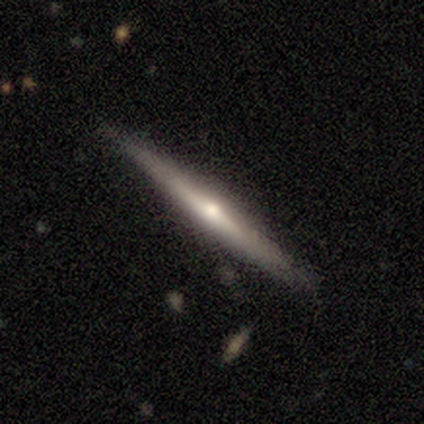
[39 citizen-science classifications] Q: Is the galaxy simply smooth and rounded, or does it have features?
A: featured or disk — 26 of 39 (67%).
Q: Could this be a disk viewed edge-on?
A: yes — 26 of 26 (100%).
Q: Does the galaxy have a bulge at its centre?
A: rounded — 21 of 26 (81%).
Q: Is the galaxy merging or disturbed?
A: none — 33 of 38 (87%).